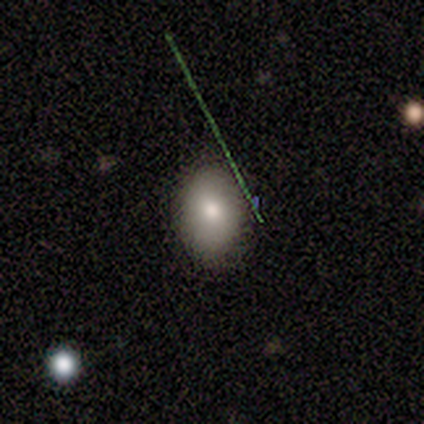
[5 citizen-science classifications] smooth 60%, featured or disk 40%, star or artifact 0%. Down the decision tree: how rounded — in between (100%); merging — none (60%).